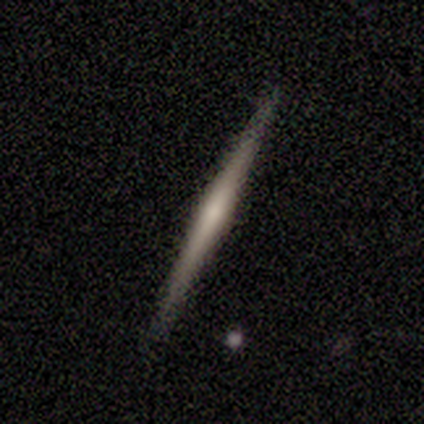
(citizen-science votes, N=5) This appears to be a featured or disk galaxy (60%) viewed edge-on (100%) with no central bulge (67%). Merging: none (100%).